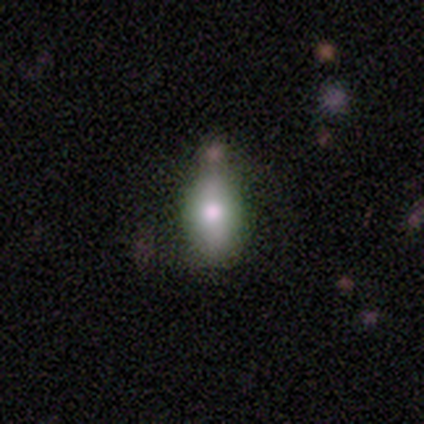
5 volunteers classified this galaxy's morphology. smooth_or_featured: smooth (p=0.80) [alt: featured or disk p=0.20]
how_rounded: in between (p=0.75) [alt: cigar-shaped p=0.25]
merging: none (p=1.00)